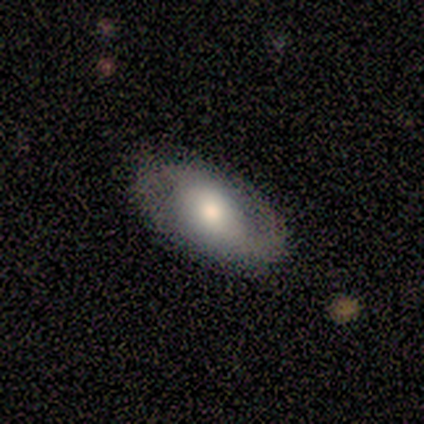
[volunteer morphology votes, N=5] This appears to be a featured or disk galaxy (100%) with no bar (60%), 2 (100%) medium (67%) spiral arms (60%) and a moderate central bulge (80%). Merging: none (80%).